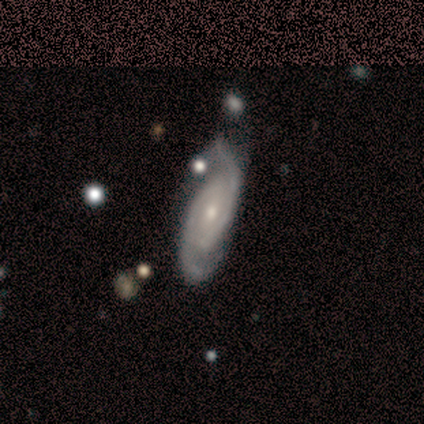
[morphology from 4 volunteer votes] A featured or disk galaxy (100%) with no bar (75%), 2 (100%) tight (50%, tied with medium) spiral arms (100%) and a small central bulge (75%).

Vote fractions:
- Smooth or featured? featured or disk: 100% / smooth: 0% / star or artifact: 0%
- Edge-on disk? no: 100% / yes: 0%
- Bar? no: 75% / weak: 25% / strong: 0%
- Spiral arms? yes: 100% / no: 0%
- Spiral winding? tight: 50% (tied) / medium: 50% (tied) / loose: 0%
- Spiral arm count? 2: 100% / 1: 0% / 3: 0% / 4: 0% / more than 4: 0% / can't tell: 0%
- Bulge size? small: 75% / moderate: 25% / dominant: 0% / large: 0% / none: 0%
- Merging? none: 50% (tied) / minor disturbance: 50% (tied) / major disturbance: 0% / merger: 0%